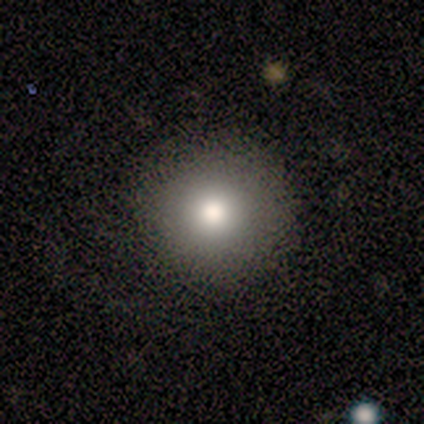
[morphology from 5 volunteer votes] type=smooth (80%); roundness=round (100%); merging=none (100%).